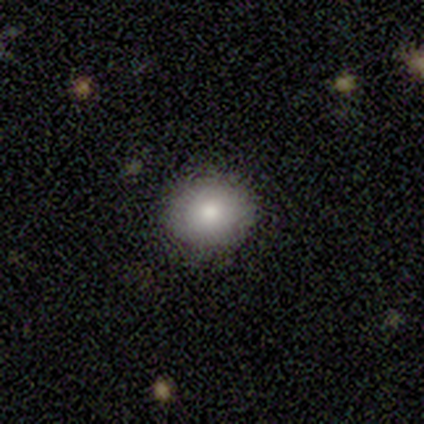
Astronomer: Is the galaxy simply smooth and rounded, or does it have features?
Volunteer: smooth — 80%.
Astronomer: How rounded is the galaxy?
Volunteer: round — 78%.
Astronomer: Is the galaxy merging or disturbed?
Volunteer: none — 92%.